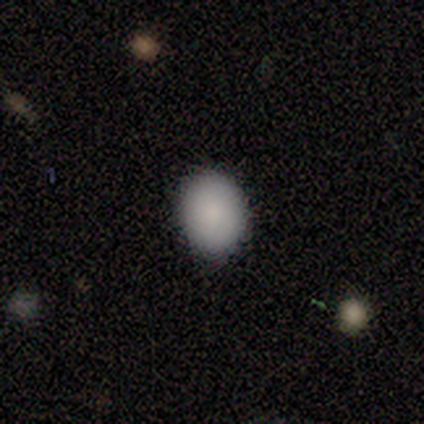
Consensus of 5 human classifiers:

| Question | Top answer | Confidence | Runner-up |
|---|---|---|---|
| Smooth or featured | smooth | 100% | — |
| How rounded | round | 60% | in between (40%) |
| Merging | none | 100% | — |